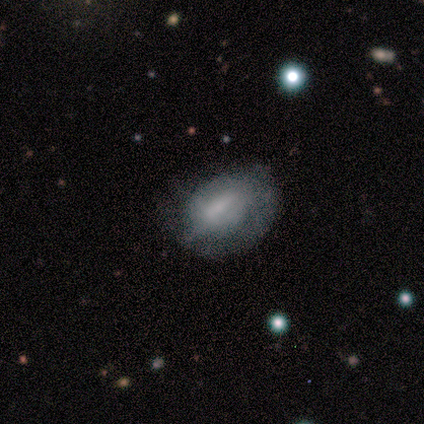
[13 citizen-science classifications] Volunteers were most divided on "merging": minor disturbance: 40%, none: 30%, major disturbance: 30%, merger: 0%. More confident: how rounded — in between (75%); smooth or featured — smooth (62%).